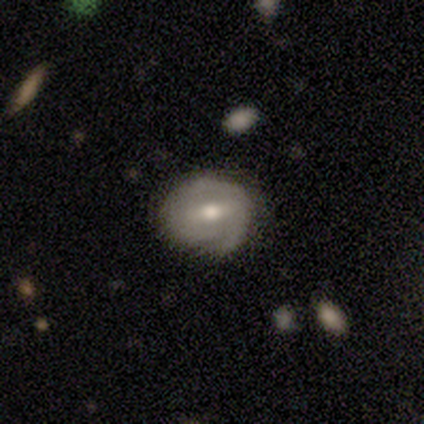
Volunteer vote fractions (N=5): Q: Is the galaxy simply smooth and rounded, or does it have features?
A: featured or disk — 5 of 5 (100%).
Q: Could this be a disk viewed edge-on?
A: no — 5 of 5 (100%).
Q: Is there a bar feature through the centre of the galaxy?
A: weak — 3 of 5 (60%).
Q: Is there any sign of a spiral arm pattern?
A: yes — 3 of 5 (60%).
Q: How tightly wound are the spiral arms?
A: tight — 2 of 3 (67%).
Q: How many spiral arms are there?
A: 1 — 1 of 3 (33%, tied with 2 and can't tell).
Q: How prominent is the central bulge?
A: moderate — 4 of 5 (80%).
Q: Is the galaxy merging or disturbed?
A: none — 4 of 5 (80%).